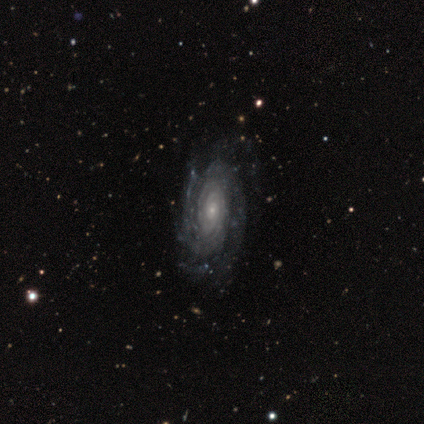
This is clearly a featured or disk galaxy (100%). It is clearly not viewed edge-on (100%). Bar: clearly no (83%). Spiral arm pattern: clearly yes (100%). Spiral arm count: marginally 3 (33%, tied with can't tell). Spiral winding: likely tight (67%). Central bulge: clearly small (83%). Merging: likely none (67%).